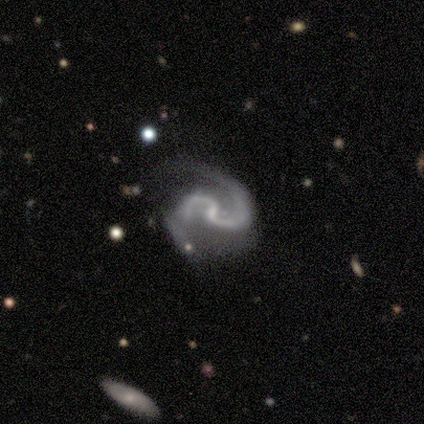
Smooth or featured? 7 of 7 (100%) said featured or disk. Edge-on disk? 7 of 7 (100%) said no. Bar? 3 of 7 (43%) said no. Spiral arms? 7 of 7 (100%) said yes. Spiral winding? 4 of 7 (57%) said medium. Spiral arm count? 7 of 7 (100%) said 2. Bulge size? 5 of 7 (71%) said none. Merging? 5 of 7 (71%) said none.